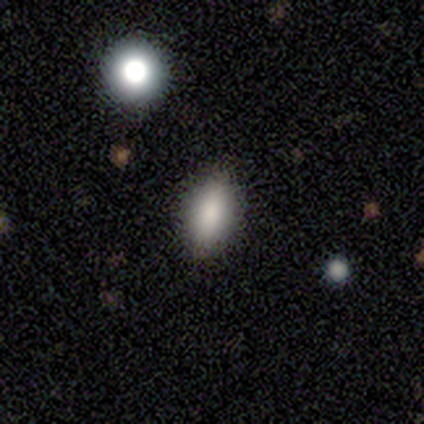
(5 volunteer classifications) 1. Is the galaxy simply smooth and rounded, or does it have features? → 100% smooth, 0% featured or disk, 0% star or artifact.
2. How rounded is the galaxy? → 100% in between, 0% round, 0% cigar-shaped.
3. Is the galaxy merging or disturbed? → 100% none, 0% minor disturbance, 0% major disturbance, 0% merger.